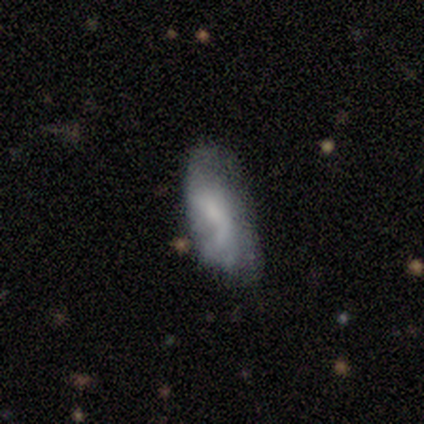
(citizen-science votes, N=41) smooth 49%, featured or disk 44%, star or artifact 7%. Down the decision tree: how rounded — in between (70%); merging — none (42%).